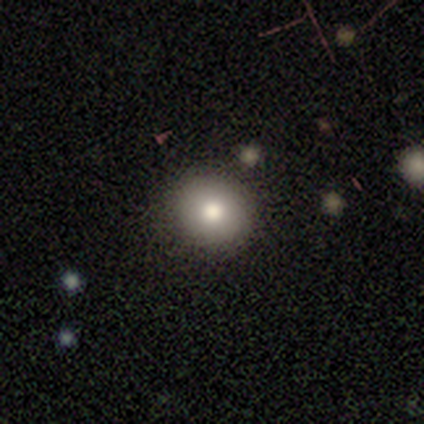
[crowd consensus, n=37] smooth_or_featured: smooth (p=0.84) [alt: featured or disk p=0.11]
how_rounded: round (p=0.87) [alt: in between p=0.13]
merging: none (p=0.80) [alt: merger p=0.09]